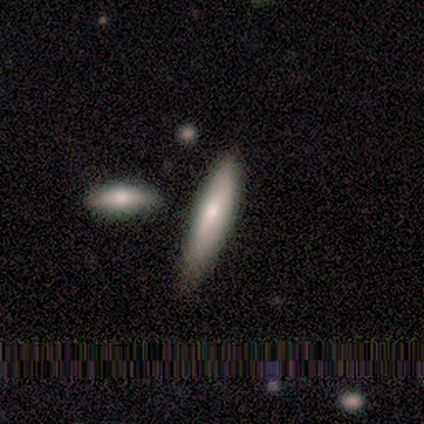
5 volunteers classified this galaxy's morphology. type=featured or disk (60%); edge-on=yes (100%); edge-on bulge=rounded (100%); merging=none (80%).